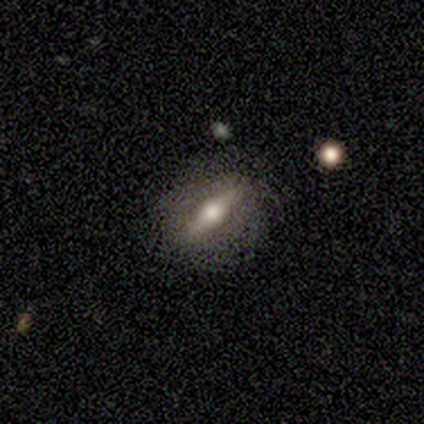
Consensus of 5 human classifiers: Morphology: type=featured or disk (80%); edge-on=yes (75%); edge-on bulge=rounded (100%); merging=none (75%).